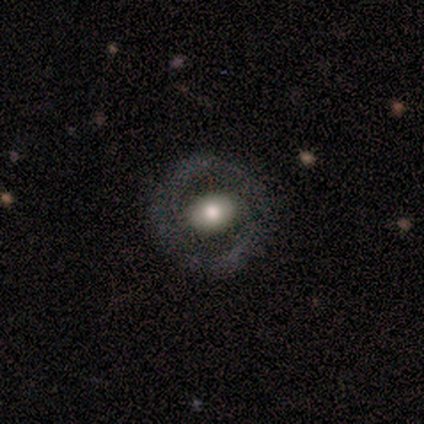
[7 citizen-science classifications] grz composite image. It shows a featured or disk galaxy (86%) with no bar (75%), no spiral arms (100%) and a moderate central bulge (100%). Merging: none (71%).